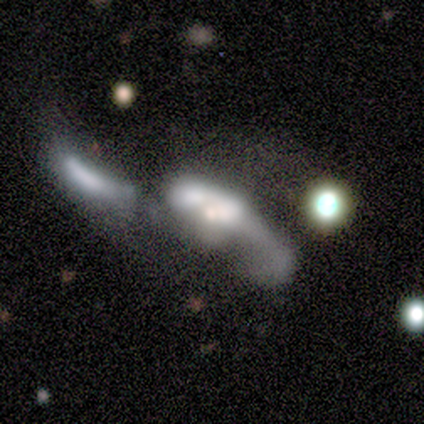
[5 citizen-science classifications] Smooth or featured?
  - featured or disk: 60% *
  - star or artifact: 40%
  - smooth: 0%
Edge-on disk?
  - no: 100% *
  - yes: 0%
Bar?
  - no: 67% *
  - weak: 33%
  - strong: 0%
Spiral arms?
  - yes: 67% *
  - no: 33%
Spiral winding?
  - loose: 100% *
  - tight: 0%
  - medium: 0%
Spiral arm count?
  - 2: 100% *
  - 1: 0%
  - 3: 0%
  - 4: 0%
  - more than 4: 0%
  - can't tell: 0%
Bulge size?
  - small: 67% *
  - none: 33%
  - dominant: 0%
  - large: 0%
  - moderate: 0%
Merging?
  - merger: 67% *
  - none: 33%
  - minor disturbance: 0%
  - major disturbance: 0%